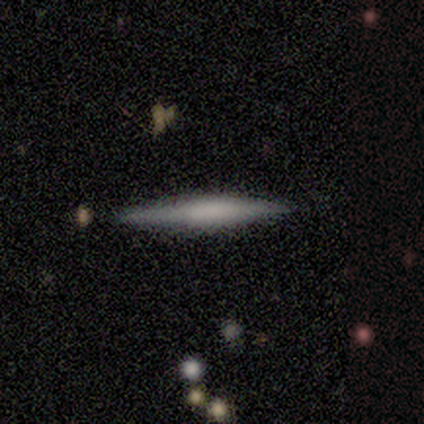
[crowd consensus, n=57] This is possibly a featured or disk galaxy (51%). It is clearly viewed edge-on (100%). Edge-on bulge: marginally boxy (41%, tied with none). Merging: clearly none (91%).